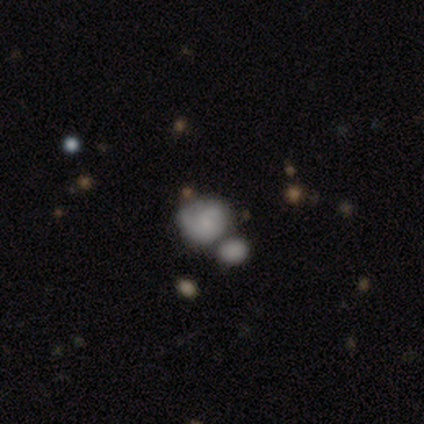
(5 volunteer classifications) Smooth or featured?
  - smooth: 100% *
  - featured or disk: 0%
  - star or artifact: 0%
How rounded?
  - round: 100% *
  - in between: 0%
  - cigar-shaped: 0%
Merging?
  - minor disturbance: 40% * (tied)
  - merger: 40% * (tied)
  - none: 20%
  - major disturbance: 0%